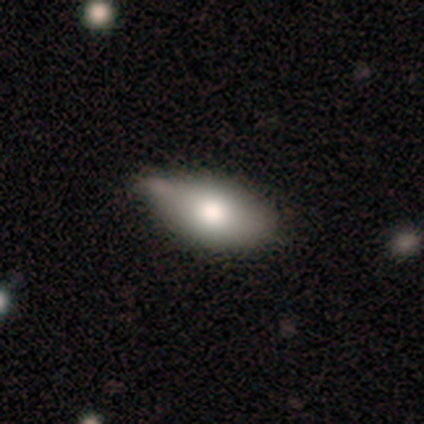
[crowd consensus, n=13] This is likely a smooth galaxy (77%). How rounded: clearly in between (100%). Merging: possibly minor disturbance (54%).